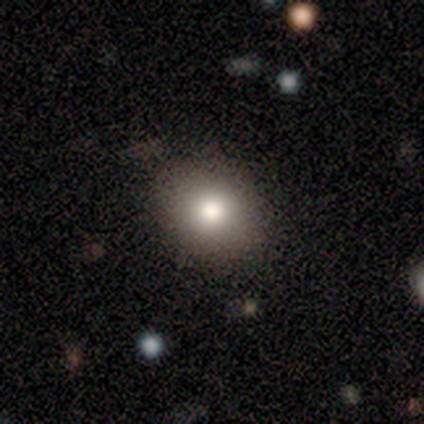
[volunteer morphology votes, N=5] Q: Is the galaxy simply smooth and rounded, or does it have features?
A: smooth — 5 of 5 (100%).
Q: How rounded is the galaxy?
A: round — 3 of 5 (60%).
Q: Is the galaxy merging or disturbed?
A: none — 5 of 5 (100%).